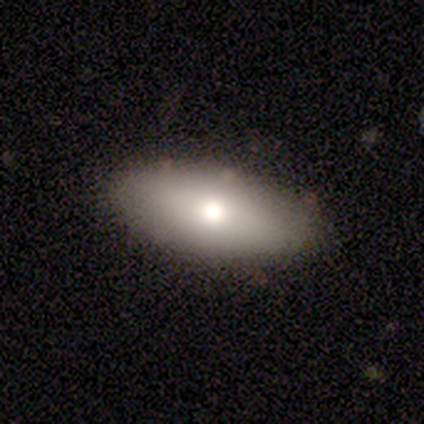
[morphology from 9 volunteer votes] smooth_or_featured: smooth (p=0.78) [alt: featured or disk p=0.22]
how_rounded: in between (p=1.00)
merging: none (p=1.00)